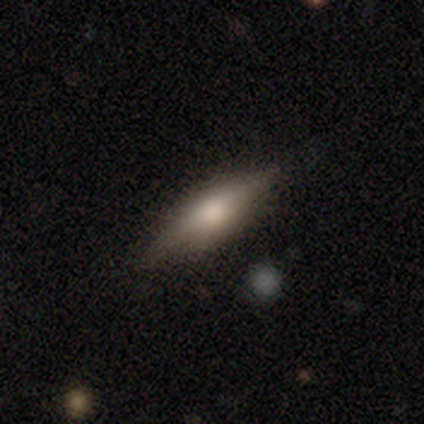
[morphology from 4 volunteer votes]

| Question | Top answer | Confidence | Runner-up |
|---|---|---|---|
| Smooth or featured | smooth | 50% | featured or disk (25%) |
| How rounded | in between | 50% | tied: cigar-shaped (50%) |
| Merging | minor disturbance | 67% | none (33%) |